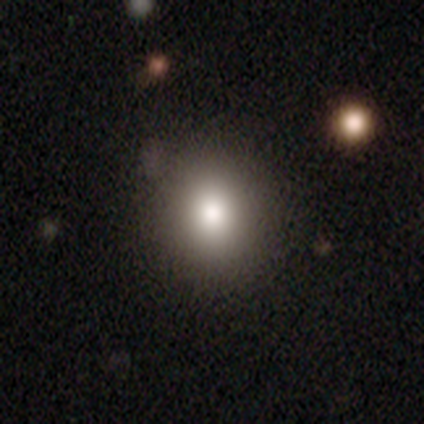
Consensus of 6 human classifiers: Q: Smooth or featured?
A: smooth (83%); runner-up: star or artifact (17%)
Q: How rounded?
A: round (100%)
Q: Merging?
A: none (100%)